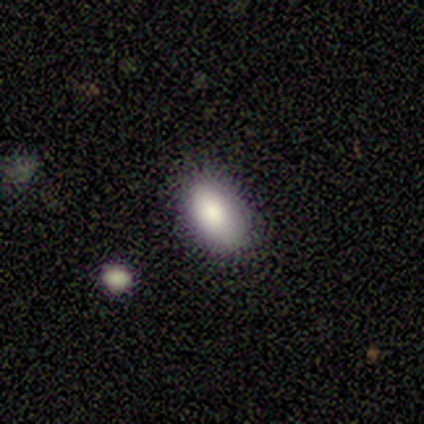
Q: Smooth or featured?
A: smooth (91%); runner-up: featured or disk (9%)
Q: How rounded?
A: in between (80%); runner-up: round (10%)
Q: Merging?
A: none (100%)